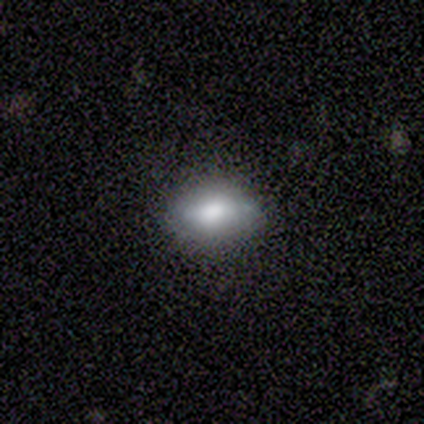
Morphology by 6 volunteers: smooth-or-featured: smooth: 83% | star or artifact: 17% | featured or disk: 0%
  how-rounded: in between: 100% | round: 0% | cigar-shaped: 0%
  merging: none: 80% | minor disturbance: 20% | major disturbance: 0% | merger: 0%